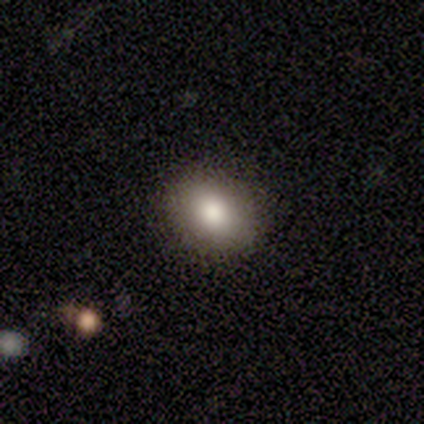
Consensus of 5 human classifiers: Morphology: type=smooth (100%); roundness=in between (80%); merging=none (100%).